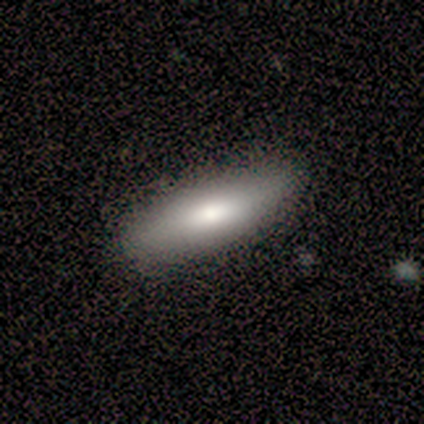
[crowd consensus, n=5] A smooth galaxy with no disk features (40%, tied with featured or disk) that is in between round and cigar-shaped (50%, tied with cigar-shaped).

Vote fractions:
- Smooth or featured? smooth: 40% (tied) / featured or disk: 40% (tied) / star or artifact: 20%
- How rounded? in between: 50% (tied) / cigar-shaped: 50% (tied) / round: 0%
- Merging? none: 75% / minor disturbance: 25% / major disturbance: 0% / merger: 0%